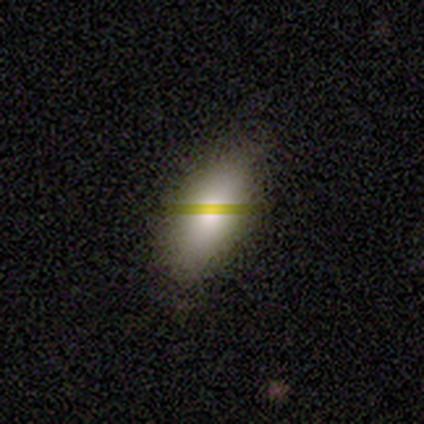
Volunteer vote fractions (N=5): smooth 40% (tied), featured or disk 40% (tied), star or artifact 20%. Down the decision tree: how rounded — in between (100%); merging — minor disturbance (50%).